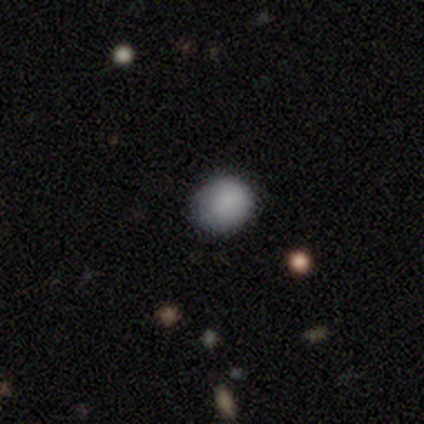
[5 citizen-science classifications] Smooth or featured: smooth — 100%
How rounded: round — 80% (in between — 20%)
Merging: none — 100%